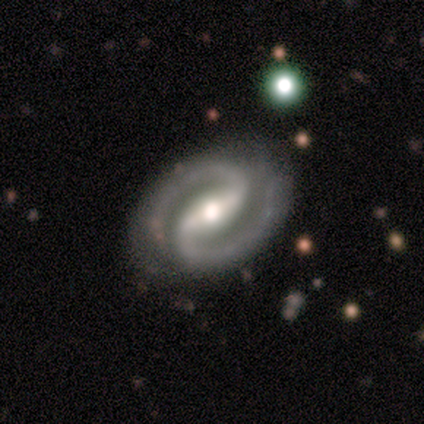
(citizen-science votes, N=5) Overall: featured or disk (100%). Edge-on disk: no (80%). Bar: weak (50%; strong 25%). Spiral arms: yes (100%). Spiral arm count: 2 (100%). Spiral winding: tight (75%). Bulge size: small (50%; large 25%). Merging: none (100%).